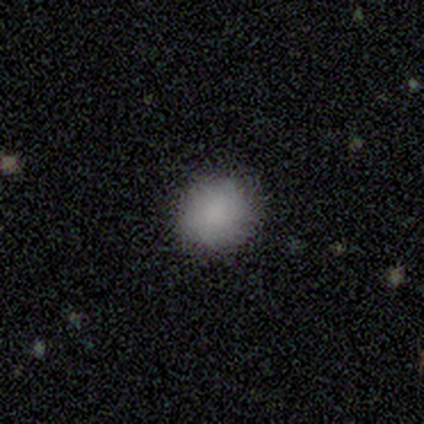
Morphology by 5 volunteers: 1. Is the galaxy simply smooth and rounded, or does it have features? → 100% smooth, 0% featured or disk, 0% star or artifact.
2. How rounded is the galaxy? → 80% round, 20% in between, 0% cigar-shaped.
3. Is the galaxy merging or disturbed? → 100% none, 0% minor disturbance, 0% major disturbance, 0% merger.